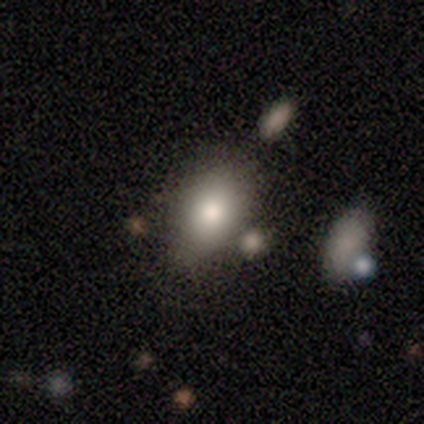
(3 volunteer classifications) A smooth galaxy with no disk features (67%) that is in between round and cigar-shaped (100%). Merging: none (100%).